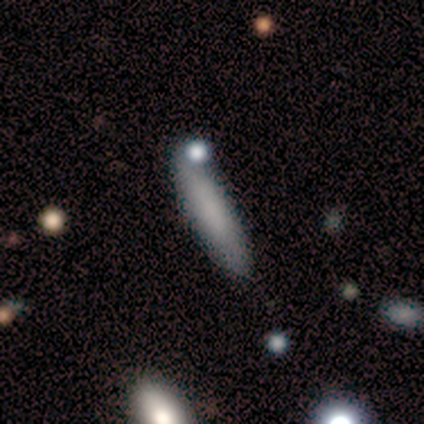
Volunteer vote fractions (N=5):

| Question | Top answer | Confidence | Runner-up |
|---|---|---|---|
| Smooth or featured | smooth | 80% | featured or disk (20%) |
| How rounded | cigar-shaped | 75% | in between (25%) |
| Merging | none | 100% | — |